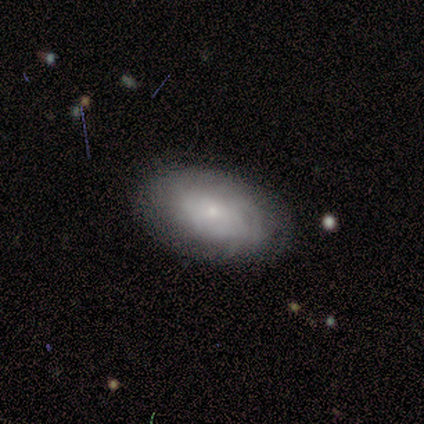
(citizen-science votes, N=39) smooth-or-featured: featured or disk: 51% | smooth: 41% | star or artifact: 8%
  disk-edge-on: no: 85% | yes: 15%
    bar: no: 71% | weak: 29% | strong: 0%
    has-spiral-arms: yes: 94% | no: 6%
      spiral-winding: tight: 69% | medium: 31% | loose: 0%
      spiral-arm-count: can't tell: 69% | more than 4: 12% | 1: 6% | 3: 6% | 4: 6% | 2: 0%
    bulge-size: small: 71% | moderate: 18% | dominant: 6% | none: 6% | large: 0%
  merging: none: 72% | minor disturbance: 25% | major disturbance: 3% | merger: 0%